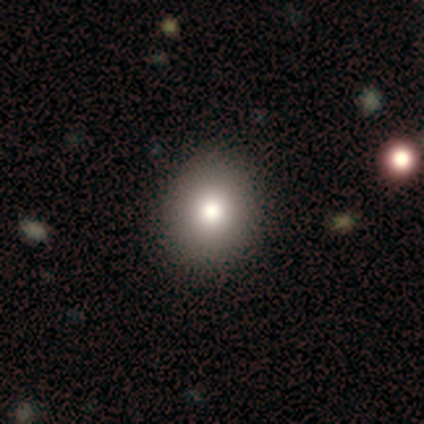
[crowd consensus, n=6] Smooth or featured? smooth (100%)
How rounded? round (100%)
Merging? none (83%)